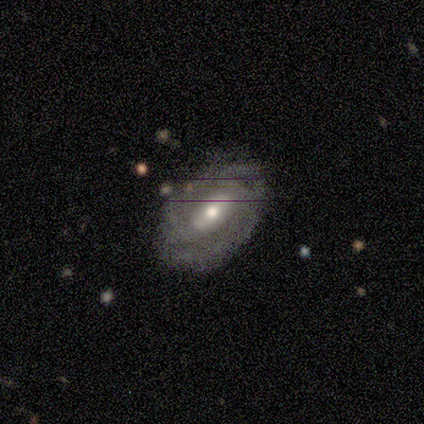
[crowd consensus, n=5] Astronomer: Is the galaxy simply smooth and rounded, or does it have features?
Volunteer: featured or disk — 60% (runner-up: smooth, 40%).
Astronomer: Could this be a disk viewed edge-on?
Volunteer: no — 100%.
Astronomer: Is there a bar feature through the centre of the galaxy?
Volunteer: no — 100%.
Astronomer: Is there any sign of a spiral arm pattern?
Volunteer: yes — 67%.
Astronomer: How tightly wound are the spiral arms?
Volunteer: tight — 50%, tied with medium at 50%.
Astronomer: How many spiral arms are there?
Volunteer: can't tell — 100%.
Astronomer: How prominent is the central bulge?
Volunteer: moderate — 67%.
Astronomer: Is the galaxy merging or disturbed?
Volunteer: none — 60% (runner-up: minor disturbance, 40%).